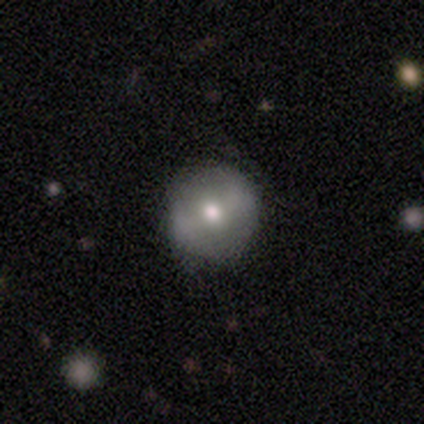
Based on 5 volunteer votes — Smooth or featured?
  - featured or disk: 60% *
  - smooth: 20%
  - star or artifact: 20%
Edge-on disk?
  - no: 100% *
  - yes: 0%
Bar?
  - weak: 67% *
  - no: 33%
  - strong: 0%
Spiral arms?
  - no: 67% *
  - yes: 33%
Bulge size?
  - moderate: 67% *
  - large: 33%
  - dominant: 0%
  - small: 0%
  - none: 0%
Merging?
  - none: 75% *
  - major disturbance: 25%
  - minor disturbance: 0%
  - merger: 0%